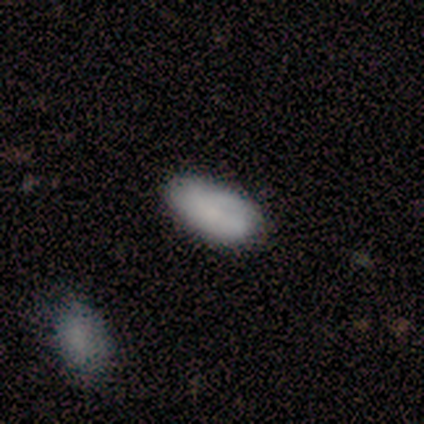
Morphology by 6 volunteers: This appears to be a smooth galaxy with no disk features (83%) that is in between round and cigar-shaped (100%). Merging: none (83%).